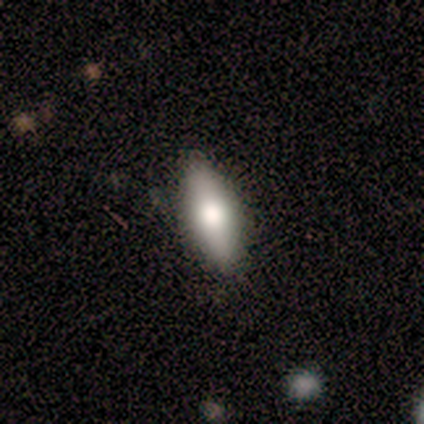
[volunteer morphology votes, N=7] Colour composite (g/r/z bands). It shows a smooth galaxy with no disk features (86%) that is cigar-shaped (67%). Merging: none (100%).